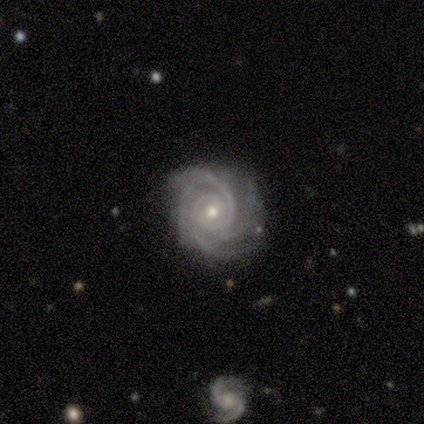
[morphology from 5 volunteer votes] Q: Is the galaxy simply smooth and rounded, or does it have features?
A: featured or disk — 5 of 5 (100%).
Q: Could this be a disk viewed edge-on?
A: no — 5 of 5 (100%).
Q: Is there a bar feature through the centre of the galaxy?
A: no — 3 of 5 (60%).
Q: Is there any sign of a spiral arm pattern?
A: yes — 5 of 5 (100%).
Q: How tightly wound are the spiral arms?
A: tight — 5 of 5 (100%).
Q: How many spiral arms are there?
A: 4 — 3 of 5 (60%).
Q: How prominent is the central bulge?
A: small — 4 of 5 (80%).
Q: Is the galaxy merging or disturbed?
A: none — 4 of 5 (80%).